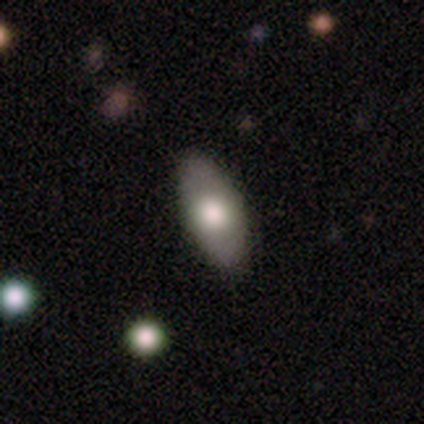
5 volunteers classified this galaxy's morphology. Volunteers were most divided on "how rounded": in between: 75%, cigar-shaped: 25%, round: 0%. More confident: merging — none (100%); smooth or featured — smooth (80%).